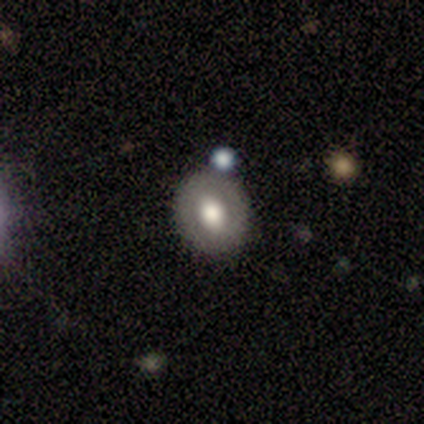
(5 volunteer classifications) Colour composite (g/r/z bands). It shows a featured or disk galaxy (60%) with no bar (67%), no spiral arms (67%) and a large central bulge (67%). Merging: none (100%).